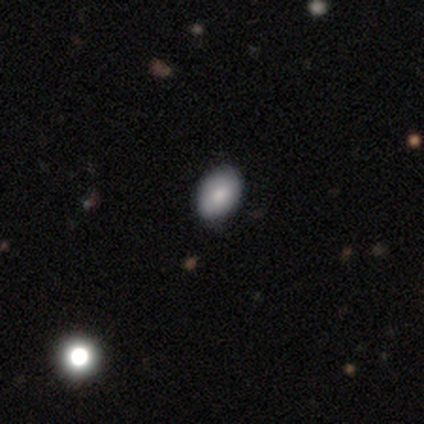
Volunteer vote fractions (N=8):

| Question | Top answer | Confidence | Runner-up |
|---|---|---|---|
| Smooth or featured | smooth | 75% | featured or disk (25%) |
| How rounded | in between | 83% | round (17%) |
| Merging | none | 88% | minor disturbance (12%) |